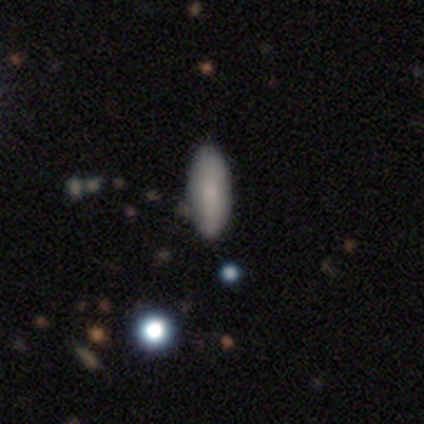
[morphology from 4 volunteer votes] Smooth or featured? 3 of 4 (75%) said smooth. How rounded? 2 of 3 (67%) said in between. Merging? 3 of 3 (100%) said none.